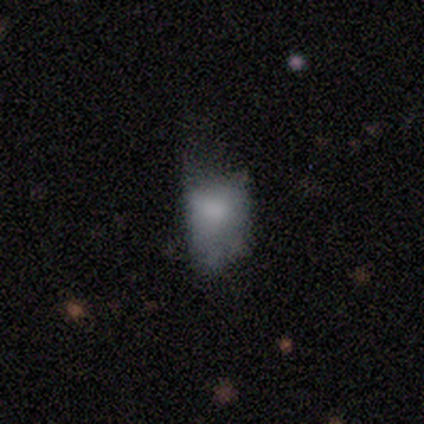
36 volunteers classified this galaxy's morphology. smooth-or-featured: smooth: 69% | featured or disk: 22% | star or artifact: 8%
  how-rounded: in between: 76% | round: 24% | cigar-shaped: 0%
  merging: major disturbance: 39% | minor disturbance: 33% | none: 27% | merger: 0%